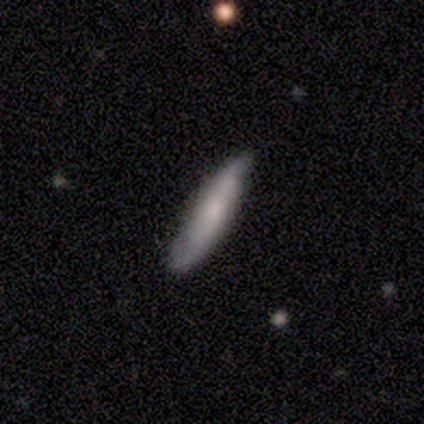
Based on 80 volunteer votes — Overall: smooth (59%; featured or disk 39%). How rounded: cigar-shaped (74%). Merging: none (42%; minor disturbance 18%).